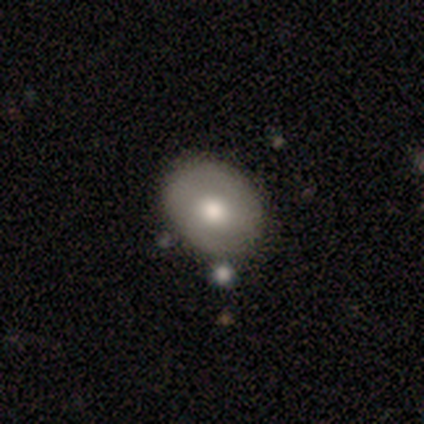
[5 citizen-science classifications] Morphology: type=smooth (100%); roundness=in between (60%); merging=none (100%).